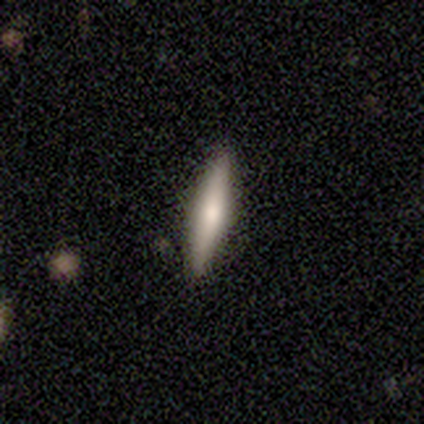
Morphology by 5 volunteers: Smooth or featured? 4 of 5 (80%) said smooth. How rounded? 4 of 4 (100%) said cigar-shaped. Merging? 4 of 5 (80%) said none.